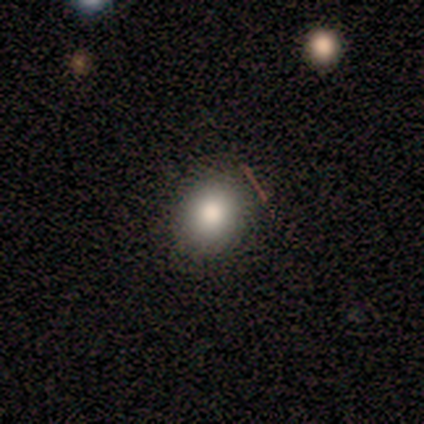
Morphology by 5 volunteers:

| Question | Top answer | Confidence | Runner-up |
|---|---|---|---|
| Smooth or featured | smooth | 80% | featured or disk (20%) |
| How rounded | round | 100% | — |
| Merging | none | 100% | — |